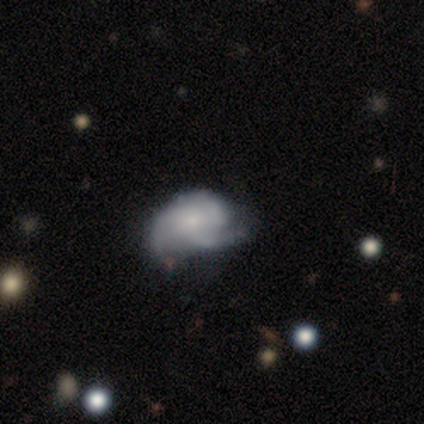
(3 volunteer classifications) A smooth galaxy with no disk features (33%, tied with featured or disk and star or artifact) that is in between round and cigar-shaped (100%). Merging: none (50%, tied with major disturbance).